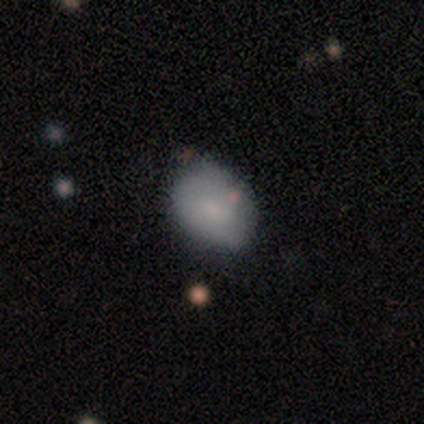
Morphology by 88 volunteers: Smooth or featured? smooth (73%)
How rounded? in between (64%)
Merging? none (73%)